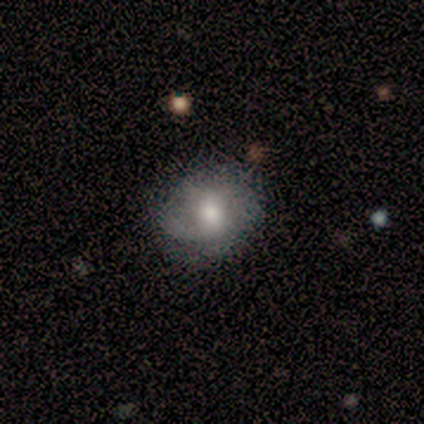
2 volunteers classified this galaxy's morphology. A smooth galaxy with no disk features (50%, tied with featured or disk) that is round (100%).

Vote fractions:
- Smooth or featured? smooth: 50% (tied) / featured or disk: 50% (tied) / star or artifact: 0%
- How rounded? round: 100% / in between: 0% / cigar-shaped: 0%
- Merging? none: 100% / minor disturbance: 0% / major disturbance: 0% / merger: 0%